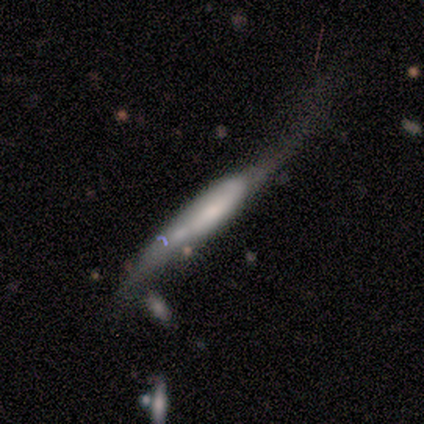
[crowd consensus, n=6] Smooth or featured? smooth (67%)
How rounded? cigar-shaped (100%)
Merging? major disturbance (100%)